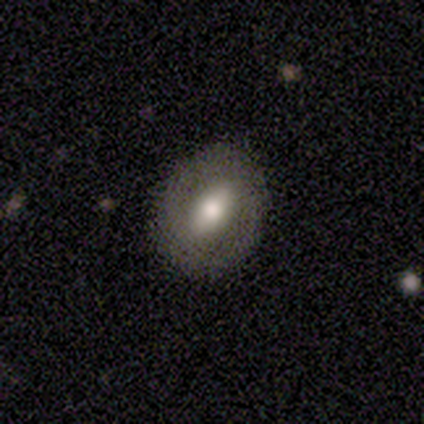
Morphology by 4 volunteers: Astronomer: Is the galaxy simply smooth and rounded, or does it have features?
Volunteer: featured or disk — 100%.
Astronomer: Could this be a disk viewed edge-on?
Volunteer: no — 100%.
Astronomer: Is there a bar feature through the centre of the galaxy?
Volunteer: weak — 75%.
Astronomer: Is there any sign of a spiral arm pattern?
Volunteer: yes — 75%.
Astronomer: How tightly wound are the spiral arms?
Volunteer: tight — 100%.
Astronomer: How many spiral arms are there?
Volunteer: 2 — 67%.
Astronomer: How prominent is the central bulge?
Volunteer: moderate — 100%.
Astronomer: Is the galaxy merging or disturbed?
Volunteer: none — 100%.